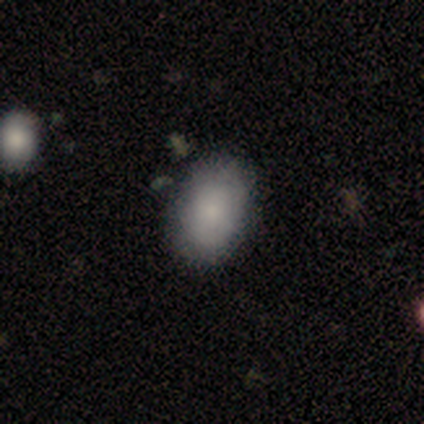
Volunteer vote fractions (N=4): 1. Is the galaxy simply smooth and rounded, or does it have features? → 100% smooth, 0% featured or disk, 0% star or artifact.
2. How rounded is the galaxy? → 100% in between, 0% round, 0% cigar-shaped.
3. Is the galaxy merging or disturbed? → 100% none, 0% minor disturbance, 0% major disturbance, 0% merger.